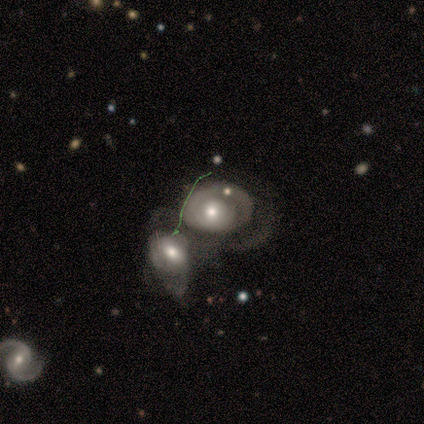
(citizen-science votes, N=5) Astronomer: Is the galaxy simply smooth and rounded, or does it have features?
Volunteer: smooth — 40%, tied with featured or disk at 40%.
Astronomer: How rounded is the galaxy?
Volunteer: in between — 100%.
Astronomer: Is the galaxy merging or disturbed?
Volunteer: merger — 75%.